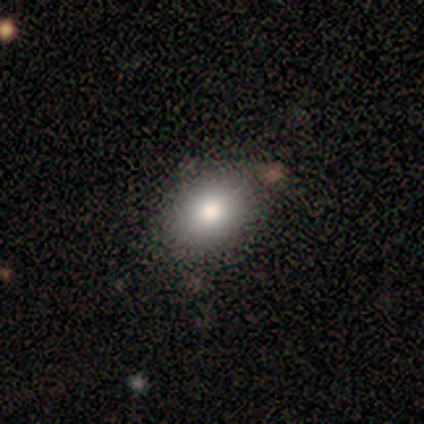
This appears to be a smooth galaxy with no disk features (60%) that is in between round and cigar-shaped (67%). Merging: none (100%).